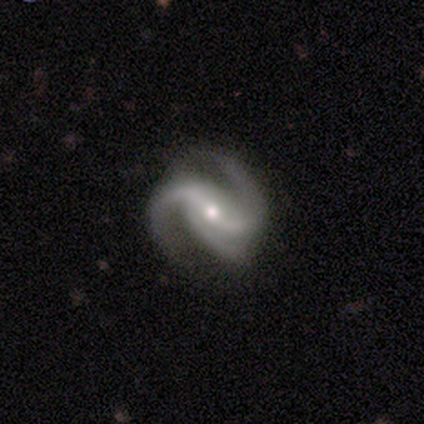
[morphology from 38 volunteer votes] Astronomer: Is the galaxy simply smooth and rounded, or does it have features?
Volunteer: featured or disk — 95%.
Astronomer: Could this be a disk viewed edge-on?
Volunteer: no — 100%.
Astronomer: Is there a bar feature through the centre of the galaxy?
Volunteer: weak — 47% (runner-up: strong, 39%).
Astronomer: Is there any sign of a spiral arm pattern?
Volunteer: yes — 94%.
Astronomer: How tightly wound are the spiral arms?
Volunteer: medium — 59%.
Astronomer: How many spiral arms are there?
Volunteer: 3 — 56% (runner-up: 2, 41%).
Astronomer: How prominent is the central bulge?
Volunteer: moderate — 50% (runner-up: small, 44%).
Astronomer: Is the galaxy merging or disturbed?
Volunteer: none — 72%.